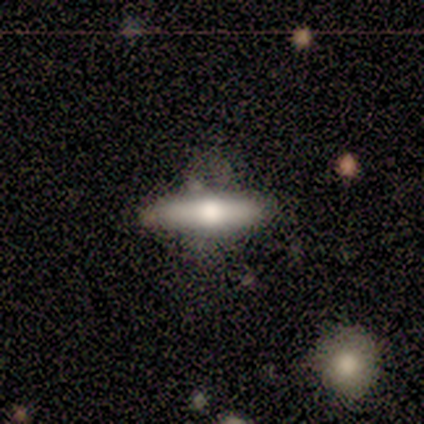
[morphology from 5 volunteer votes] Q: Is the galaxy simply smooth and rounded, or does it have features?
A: smooth — 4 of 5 (80%).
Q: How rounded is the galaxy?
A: in between — 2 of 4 (50%, tied with cigar-shaped).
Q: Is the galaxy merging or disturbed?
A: none — 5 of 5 (100%).